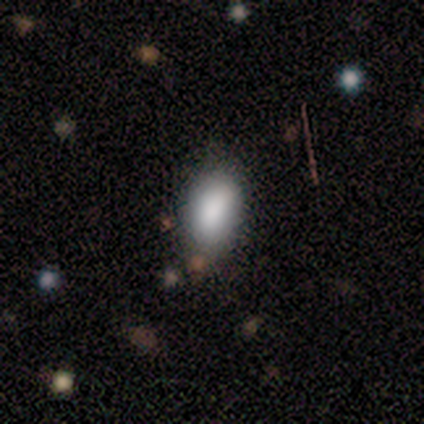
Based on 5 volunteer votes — Smooth or featured: smooth — 60% (featured or disk — 20%)
How rounded: in between — 100%
Merging: none — 75% (merger — 25%)